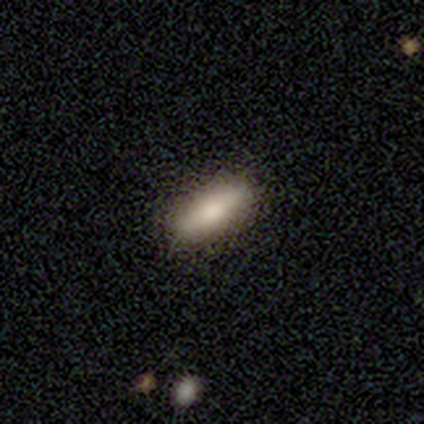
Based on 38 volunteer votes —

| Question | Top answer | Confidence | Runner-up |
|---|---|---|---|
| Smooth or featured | smooth | 79% | featured or disk (18%) |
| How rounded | in between | 57% | cigar-shaped (43%) |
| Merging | none | 97% | minor disturbance (3%) |